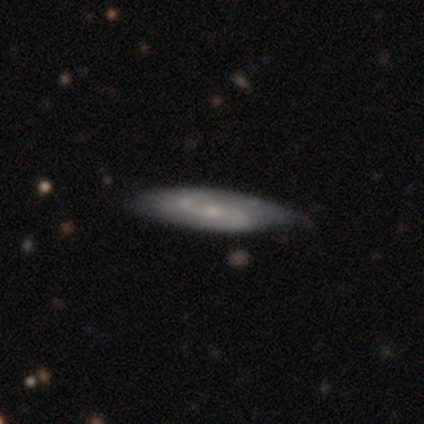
Q: Smooth or featured?
A: featured or disk (75%); runner-up: smooth (25%)
Q: Edge-on disk?
A: no (67%); runner-up: yes (33%)
Q: Bar?
A: strong (50%); tied with: no (50%)
Q: Spiral arms?
A: yes (100%)
Q: Spiral winding?
A: tight (50%); tied with: medium (50%)
Q: Spiral arm count?
A: 2 (50%); tied with: can't tell (50%)
Q: Bulge size?
A: small (50%); tied with: none (50%)
Q: Merging?
A: none (50%); tied with: minor disturbance (50%)